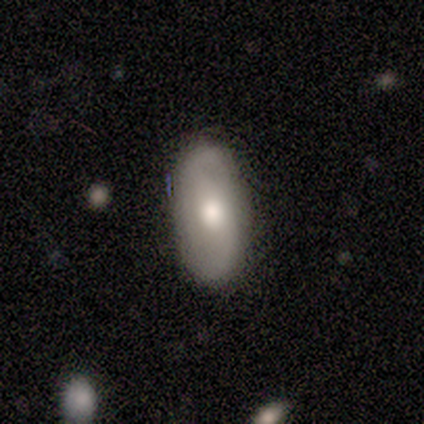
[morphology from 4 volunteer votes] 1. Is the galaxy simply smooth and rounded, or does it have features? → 75% smooth, 25% featured or disk, 0% star or artifact.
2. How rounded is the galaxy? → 100% in between, 0% round, 0% cigar-shaped.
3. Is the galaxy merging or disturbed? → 75% none, 25% minor disturbance, 0% major disturbance, 0% merger.